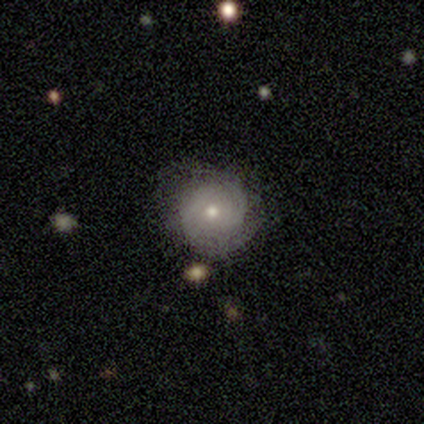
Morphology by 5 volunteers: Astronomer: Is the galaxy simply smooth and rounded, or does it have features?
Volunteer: smooth — 60%.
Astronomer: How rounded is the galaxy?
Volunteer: round — 67%.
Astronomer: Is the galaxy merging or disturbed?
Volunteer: none — 75%.